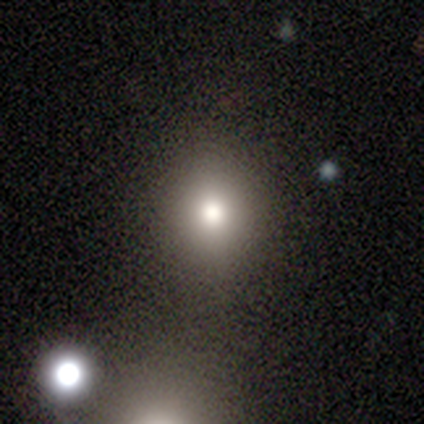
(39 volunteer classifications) This appears to be a smooth galaxy with no disk features (77%) that is round (80%). Merging: none (83%).